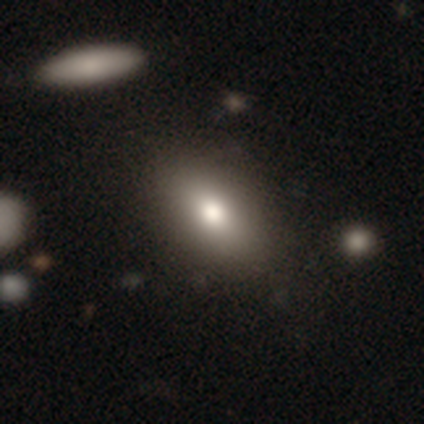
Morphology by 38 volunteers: Overall: smooth (82%). How rounded: in between (77%). Merging: none (77%).